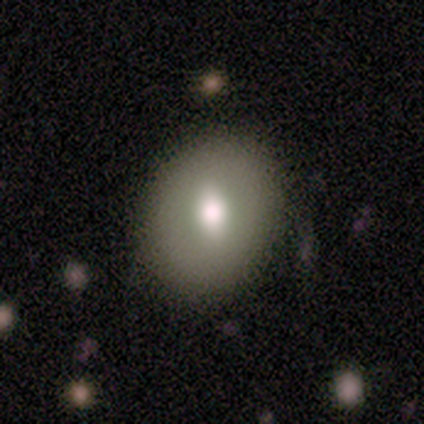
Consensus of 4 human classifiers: Smooth or featured: smooth — 50% (featured or disk — 25%)
How rounded: round — 50% (tied with in between — 50%)
Merging: none — 67% (major disturbance — 33%)